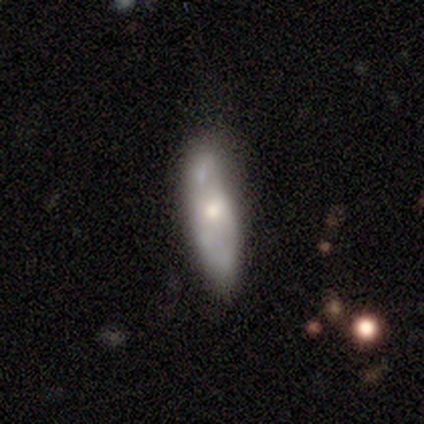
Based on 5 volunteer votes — smooth-or-featured: featured or disk: 80% | star or artifact: 20% | smooth: 0%
  disk-edge-on: no: 75% | yes: 25%
    bar: no: 100% | strong: 0% | weak: 0%
    has-spiral-arms: no: 100% | yes: 0%
    bulge-size: moderate: 100% | dominant: 0% | large: 0% | small: 0% | none: 0%
  merging: none: 50% | minor disturbance: 25% | merger: 25% | major disturbance: 0%